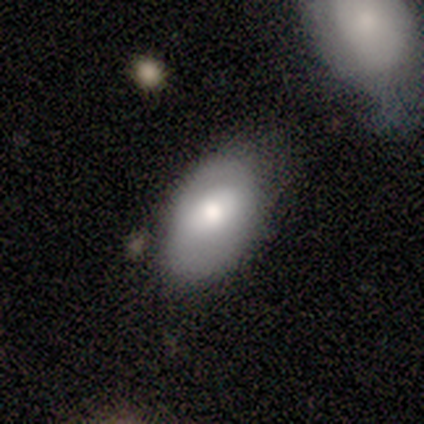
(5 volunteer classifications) Morphology: type=smooth (100%); roundness=in between (100%); merging=none (80%).